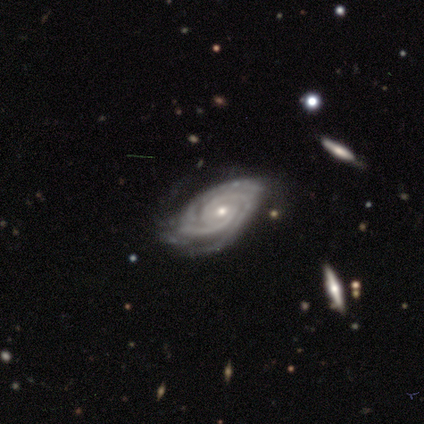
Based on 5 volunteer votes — Overall: featured or disk (100%). Edge-on disk: no (100%). Bar: no (60%; weak 40%). Spiral arms: yes (100%). Spiral arm count: 2 (40%, tied with can't tell). Spiral winding: tight (100%). Bulge size: small (60%; moderate 40%). Merging: none (60%; minor disturbance 40%).